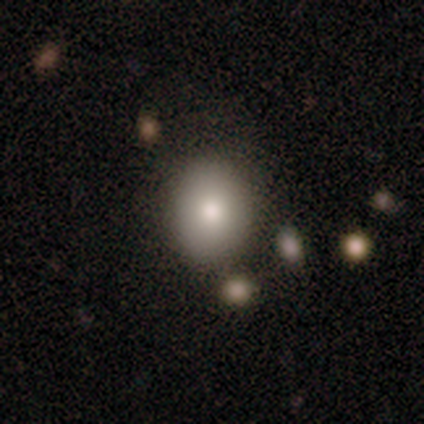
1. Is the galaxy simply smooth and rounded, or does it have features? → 78% smooth, 12% star or artifact, 10% featured or disk.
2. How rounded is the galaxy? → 52% in between, 48% round, 0% cigar-shaped.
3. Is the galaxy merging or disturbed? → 86% none, 9% minor disturbance, 3% major disturbance, 3% merger.